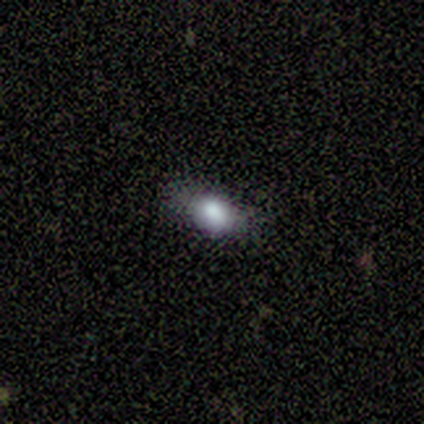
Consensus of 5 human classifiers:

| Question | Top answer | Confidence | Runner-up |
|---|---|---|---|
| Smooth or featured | smooth | 60% | featured or disk (20%) |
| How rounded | in between | 100% | — |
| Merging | none | 50% | tied: minor disturbance (50%) |